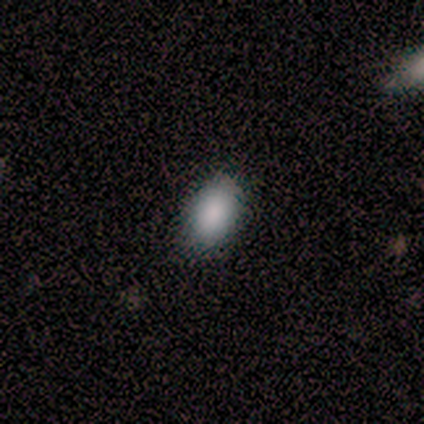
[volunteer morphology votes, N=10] Q: Smooth or featured?
A: smooth (100%)
Q: How rounded?
A: in between (90%); runner-up: round (10%)
Q: Merging?
A: none (90%); runner-up: minor disturbance (10%)